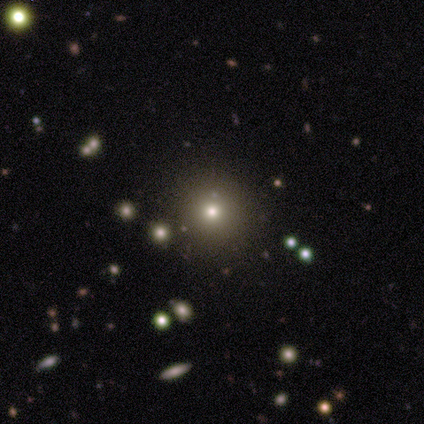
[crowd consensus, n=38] Overall: smooth (58%; star or artifact 39%). How rounded: round (100%). Merging: none (96%).